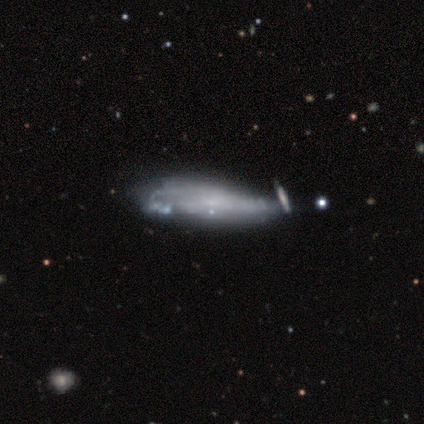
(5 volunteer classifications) A smooth galaxy with no disk features (40%, tied with featured or disk) that is in between round and cigar-shaped (100%).

Vote fractions:
- Smooth or featured? smooth: 40% (tied) / featured or disk: 40% (tied) / star or artifact: 20%
- How rounded? in between: 100% / round: 0% / cigar-shaped: 0%
- Merging? none: 50% (tied) / minor disturbance: 50% (tied) / major disturbance: 0% / merger: 0%